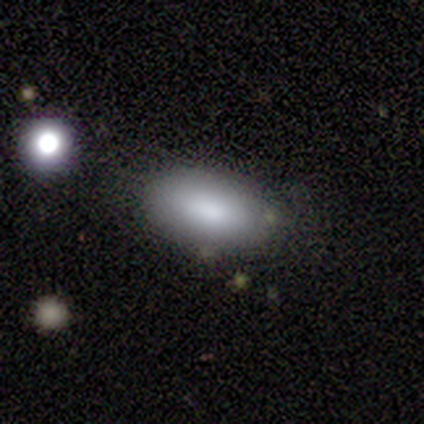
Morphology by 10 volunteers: smooth-or-featured: smooth: 50% | featured or disk: 30% | star or artifact: 20%
  how-rounded: in between: 100% | round: 0% | cigar-shaped: 0%
  merging: none: 62% | minor disturbance: 38% | major disturbance: 0% | merger: 0%